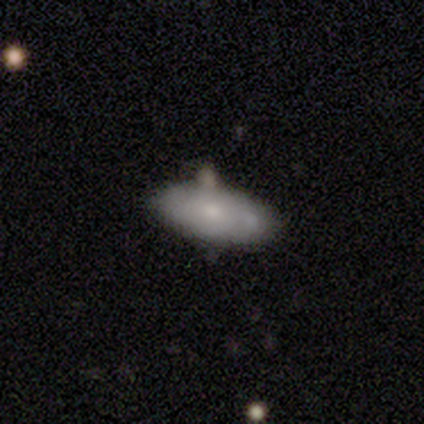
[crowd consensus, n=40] A smooth galaxy with no disk features (82%) that is in between round and cigar-shaped (94%). Merging: none (69%).